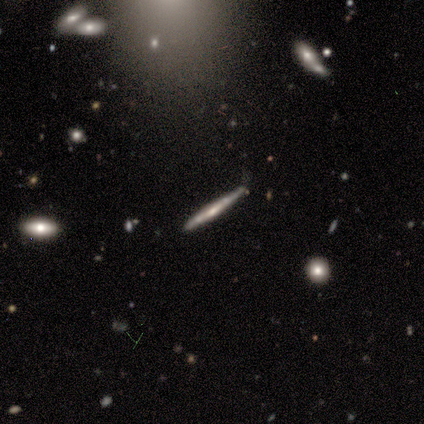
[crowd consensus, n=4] Morphology: type=smooth (100%); roundness=cigar-shaped (100%); merging=minor disturbance (75%).